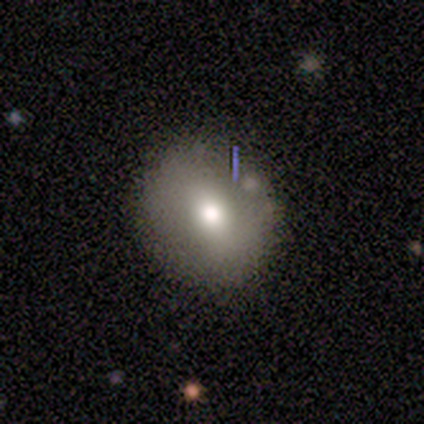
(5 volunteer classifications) A star or artifact, not a galaxy (60%).